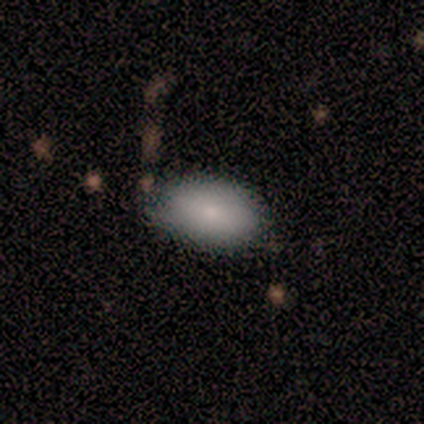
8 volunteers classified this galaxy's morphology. smooth 88%, featured or disk 12%, star or artifact 0%. Down the decision tree: how rounded — in between (71%); merging — none (88%).